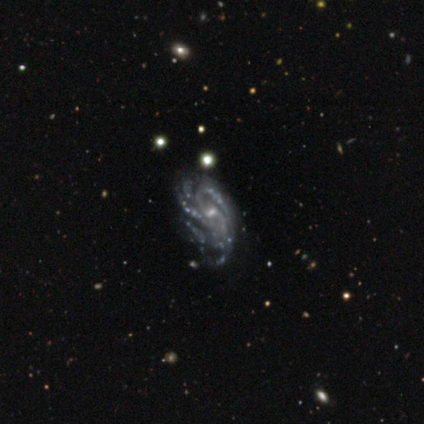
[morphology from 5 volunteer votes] A featured or disk galaxy (100%) with a weak bar (80%), 3 (60%) tight (60%) spiral arms (100%) and a small central bulge (100%). Merging: none (60%).